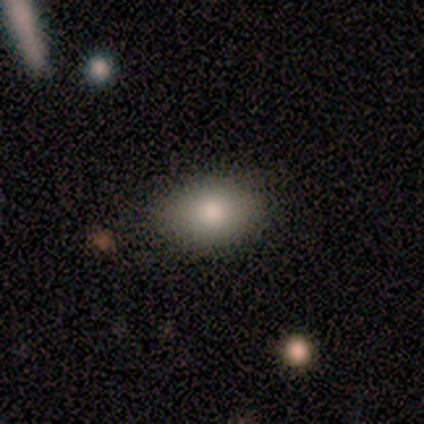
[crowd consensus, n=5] This appears to be a smooth galaxy with no disk features (100%) that is in between round and cigar-shaped (80%). Merging: none (80%).